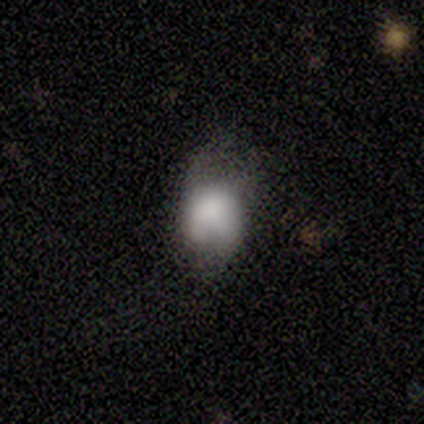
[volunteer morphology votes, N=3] Volunteers were most divided on "how rounded": in between: 67%, round: 33%, cigar-shaped: 0%. More confident: smooth or featured — smooth (100%); merging — minor disturbance (67%).